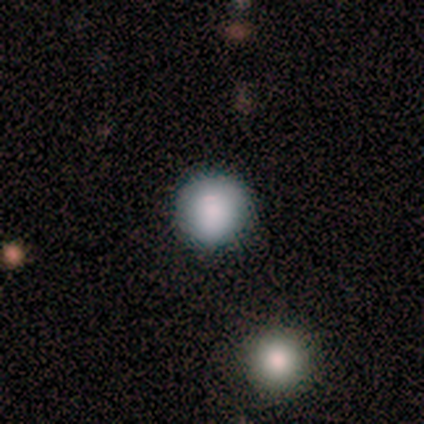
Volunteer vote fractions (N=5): This appears to be a smooth galaxy with no disk features (80%) that is round (100%). Merging: none (100%).